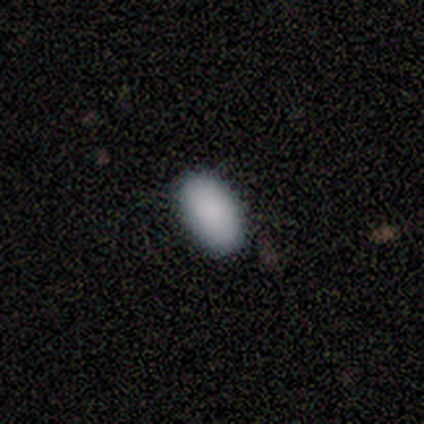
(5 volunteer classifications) smooth 100%, featured or disk 0%, star or artifact 0%. Down the decision tree: how rounded — in between (100%); merging — none (80%).